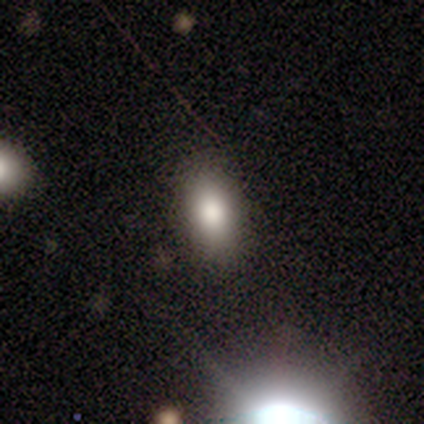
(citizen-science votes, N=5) Volunteers were most divided on "smooth or featured": smooth: 80%, star or artifact: 20%, featured or disk: 0%. More confident: how rounded — in between (100%); merging — none (100%).